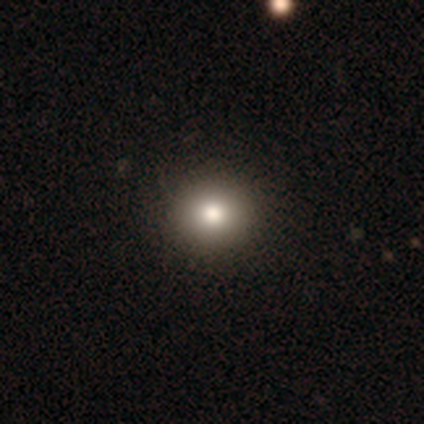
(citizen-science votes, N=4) smooth 100%, featured or disk 0%, star or artifact 0%. Down the decision tree: how rounded — round (100%); merging — none (75%).